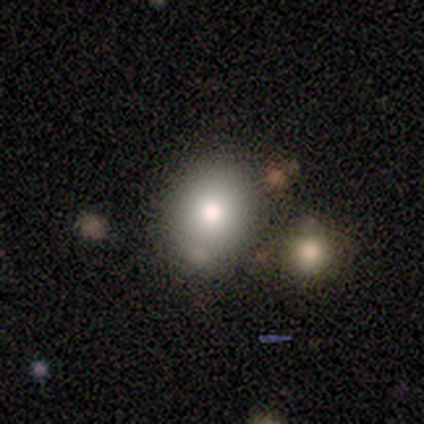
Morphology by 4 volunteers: Smooth or featured? smooth (100%)
How rounded? round (50%, tied with in between)
Merging? minor disturbance (50%, tied with merger)